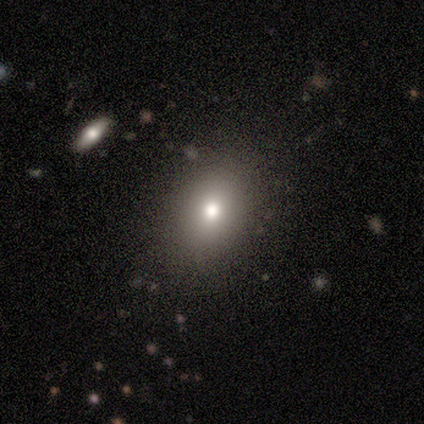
Smooth or featured? star or artifact (50%)